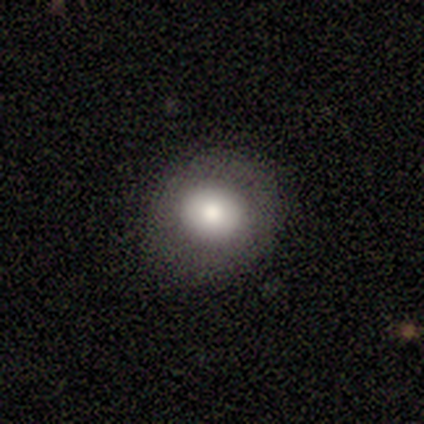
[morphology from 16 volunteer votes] A smooth galaxy with no disk features (69%) that is round (91%). Merging: none (92%).